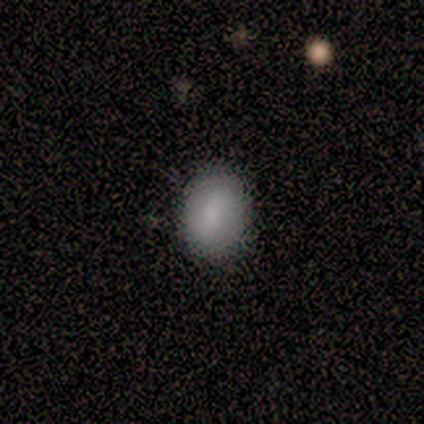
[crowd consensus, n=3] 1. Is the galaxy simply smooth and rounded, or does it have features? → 67% smooth, 33% featured or disk, 0% star or artifact.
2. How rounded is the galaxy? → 100% in between, 0% round, 0% cigar-shaped.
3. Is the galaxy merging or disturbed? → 100% none, 0% minor disturbance, 0% major disturbance, 0% merger.